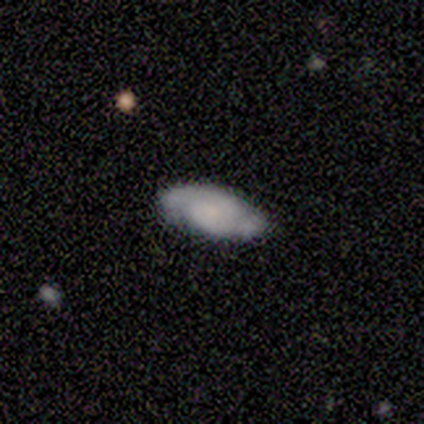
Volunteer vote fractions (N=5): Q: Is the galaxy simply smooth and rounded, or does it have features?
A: featured or disk — 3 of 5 (60%).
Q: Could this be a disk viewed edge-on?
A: no — 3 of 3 (100%).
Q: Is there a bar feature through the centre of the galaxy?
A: weak — 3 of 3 (100%).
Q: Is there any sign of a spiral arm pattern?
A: yes — 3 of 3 (100%).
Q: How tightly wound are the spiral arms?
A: tight — 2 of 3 (67%).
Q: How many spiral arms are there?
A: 2 — 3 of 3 (100%).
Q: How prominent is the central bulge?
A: none — 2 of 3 (67%).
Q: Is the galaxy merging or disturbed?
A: none — 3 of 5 (60%).